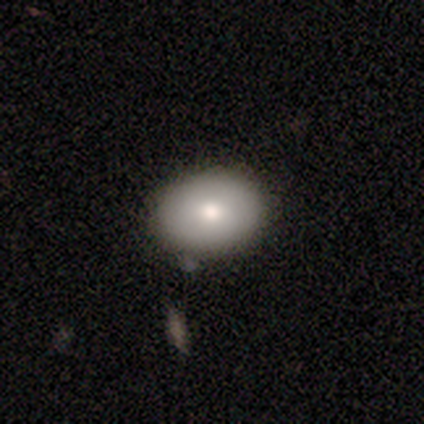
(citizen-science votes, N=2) A smooth galaxy with no disk features (50%, tied with featured or disk) that is in between round and cigar-shaped (100%). Merging: none (100%).